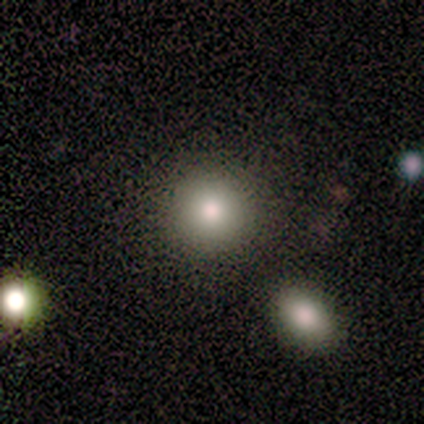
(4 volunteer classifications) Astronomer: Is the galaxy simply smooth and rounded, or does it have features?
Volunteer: smooth — 100%.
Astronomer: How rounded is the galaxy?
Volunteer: round — 75%.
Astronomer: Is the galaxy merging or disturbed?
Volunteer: none — 75%.